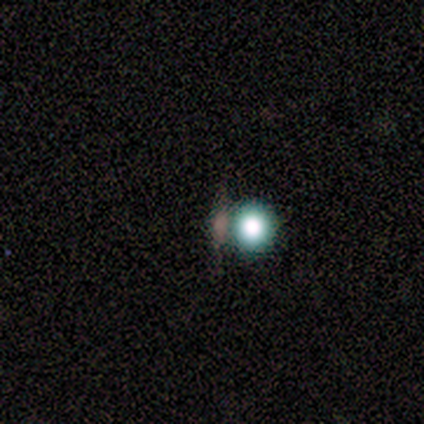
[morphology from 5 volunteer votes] Smooth or featured? featured or disk (40%, tied with star or artifact)
Edge-on disk? no (100%)
Bar? no (100%)
Spiral arms? no (100%)
Bulge size? dominant (100%)
Merging? none (33%, tied with minor disturbance and major disturbance)